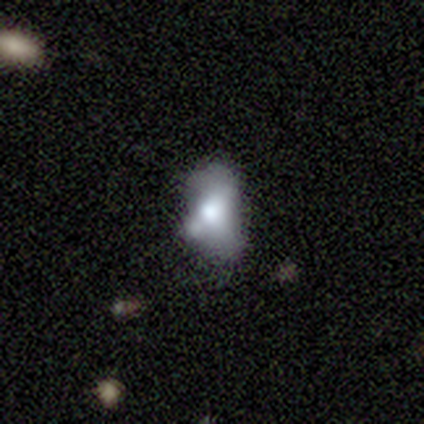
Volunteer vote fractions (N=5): Smooth or featured?
  - smooth: 80% *
  - star or artifact: 20%
  - featured or disk: 0%
How rounded?
  - in between: 100% *
  - round: 0%
  - cigar-shaped: 0%
Merging?
  - major disturbance: 50% *
  - minor disturbance: 25%
  - merger: 25%
  - none: 0%